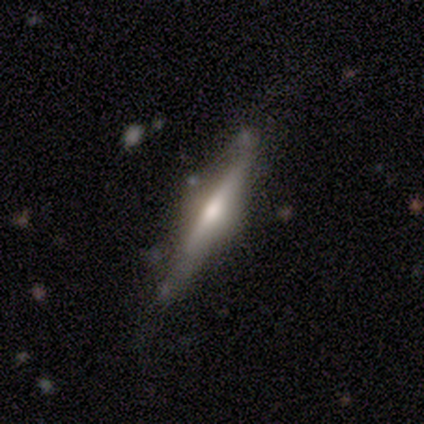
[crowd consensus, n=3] Smooth or featured: featured or disk — 67% (star or artifact — 33%)
Edge-on disk: yes — 100%
Edge-on bulge: none — 50% (tied with rounded — 50%)
Merging: none — 100%